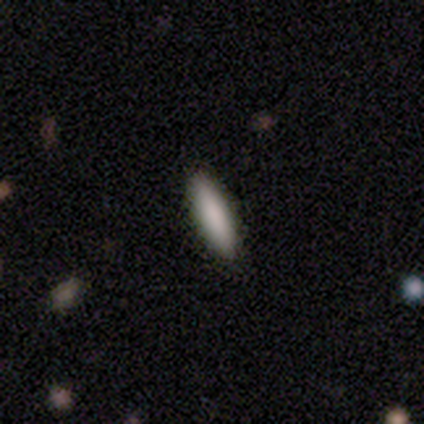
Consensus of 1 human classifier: Overall: smooth (100%). How rounded: in between (100%). Merging: none (100%).